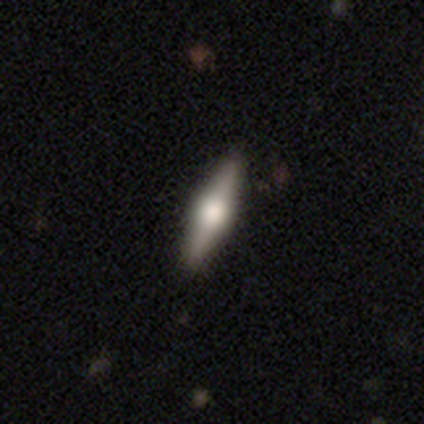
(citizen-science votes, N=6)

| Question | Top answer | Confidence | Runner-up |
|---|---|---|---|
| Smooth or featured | featured or disk | 83% | smooth (17%) |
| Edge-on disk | yes | 100% | — |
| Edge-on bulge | rounded | 100% | — |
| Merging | none | 100% | — |